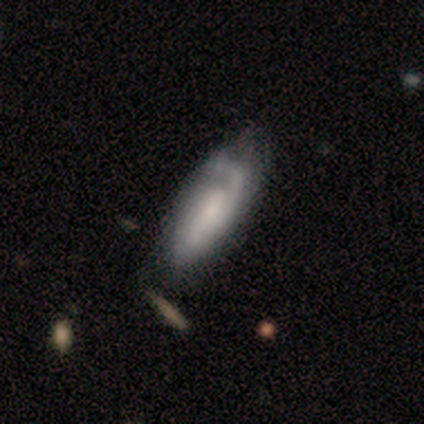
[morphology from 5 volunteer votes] A featured or disk galaxy (80%) with no bar (100%), 1 (67%) tight (67%) spiral arms (100%) and a small central bulge (67%).

Vote fractions:
- Smooth or featured? featured or disk: 80% / smooth: 20% / star or artifact: 0%
- Edge-on disk? no: 75% / yes: 25%
- Bar? no: 100% / strong: 0% / weak: 0%
- Spiral arms? yes: 100% / no: 0%
- Spiral winding? tight: 67% / medium: 33% / loose: 0%
- Spiral arm count? 1: 67% / 2: 33% / 3: 0% / 4: 0% / more than 4: 0% / can't tell: 0%
- Bulge size? small: 67% / none: 33% / dominant: 0% / large: 0% / moderate: 0%
- Merging? none: 80% / minor disturbance: 20% / major disturbance: 0% / merger: 0%